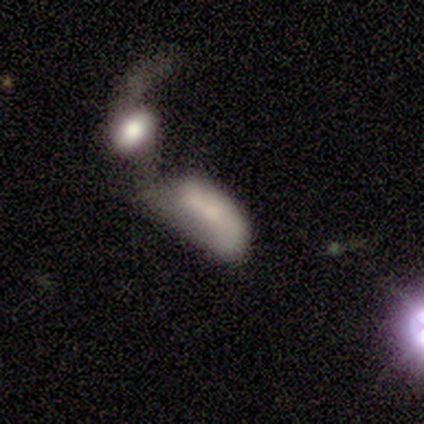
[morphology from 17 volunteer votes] A smooth galaxy with no disk features (47%, tied with featured or disk) that is in between round and cigar-shaped (75%). Merging: merger (62%).